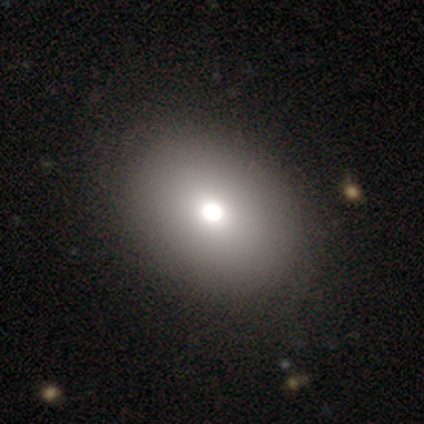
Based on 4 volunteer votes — This appears to be a smooth galaxy with no disk features (75%) that is in between round and cigar-shaped (67%). Merging: none (100%).